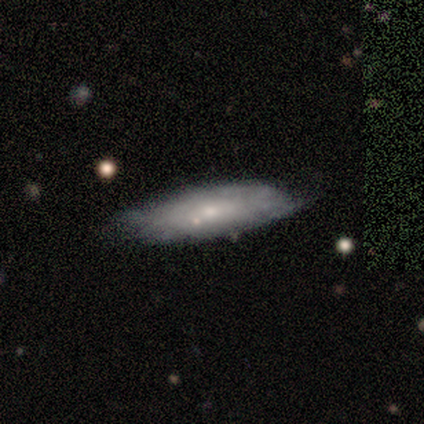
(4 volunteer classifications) smooth-or-featured: smooth: 100% | featured or disk: 0% | star or artifact: 0%
  how-rounded: in between: 100% | round: 0% | cigar-shaped: 0%
  merging: none: 100% | minor disturbance: 0% | major disturbance: 0% | merger: 0%